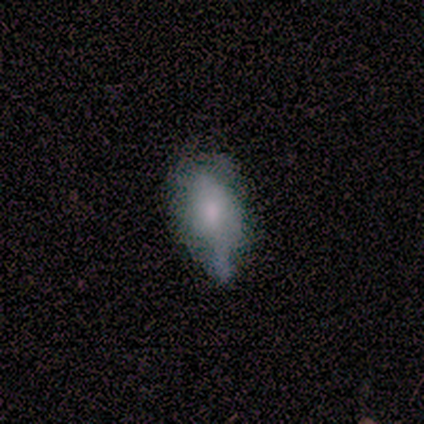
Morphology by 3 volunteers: Smooth or featured: featured or disk — 67% (smooth — 33%)
Edge-on disk: yes — 50% (tied with no — 50%)
Edge-on bulge: rounded — 100%
Merging: none — 67% (major disturbance — 33%)